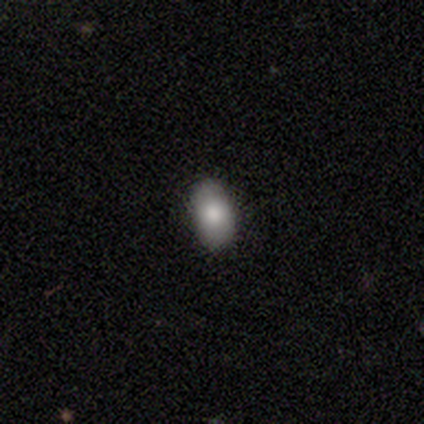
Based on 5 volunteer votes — Smooth or featured? 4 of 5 (80%) said smooth. How rounded? 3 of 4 (75%) said in between. Merging? 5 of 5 (100%) said none.